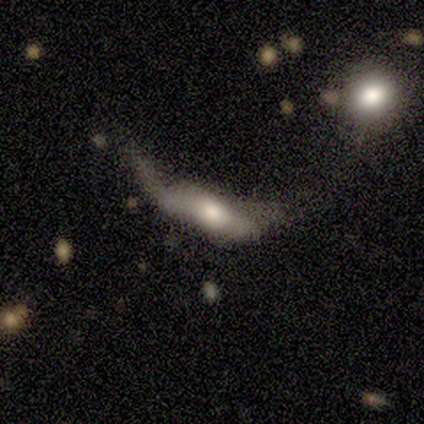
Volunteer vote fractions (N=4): Q: Smooth or featured?
A: featured or disk (50%); runner-up: smooth (25%)
Q: Edge-on disk?
A: yes (50%); tied with: no (50%)
Q: Edge-on bulge?
A: boxy (100%)
Q: Merging?
A: merger (67%); runner-up: major disturbance (33%)